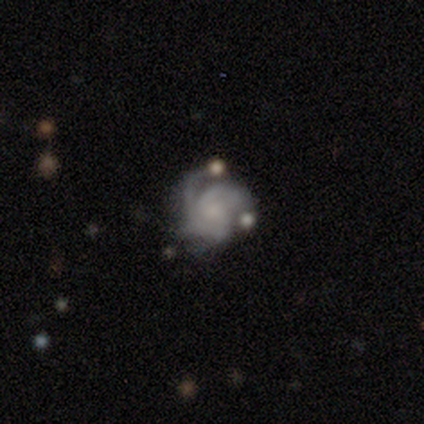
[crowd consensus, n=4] featured or disk 75%, smooth 25%, star or artifact 0%. Down the decision tree: edge-on disk — no (100%); bar — no (100%); spiral arms — yes (100%); spiral arm count — 2 (67%); spiral winding — medium (67%); bulge size — small (100%); merging — none (25%, tied with minor disturbance, major disturbance and merger).